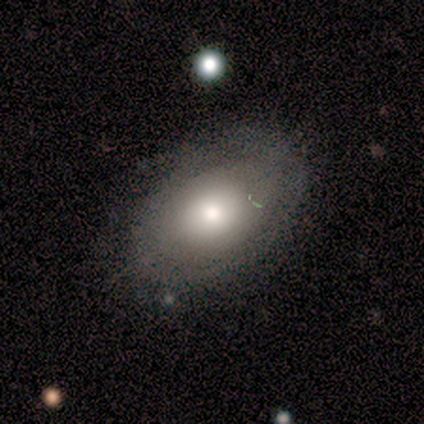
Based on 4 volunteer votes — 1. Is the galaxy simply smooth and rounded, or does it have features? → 50% smooth (tied), 50% featured or disk (tied), 0% star or artifact.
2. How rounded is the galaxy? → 100% in between, 0% round, 0% cigar-shaped.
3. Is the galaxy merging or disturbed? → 75% none, 25% minor disturbance, 0% major disturbance, 0% merger.